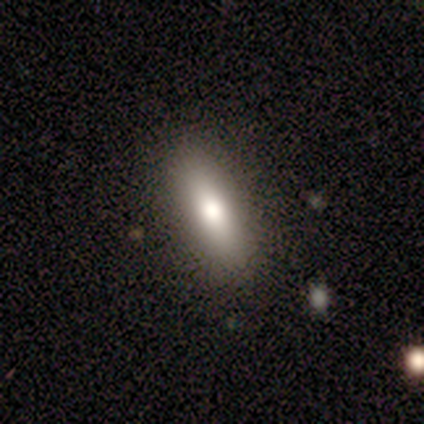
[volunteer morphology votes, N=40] A smooth galaxy with no disk features (72%) that is in between round and cigar-shaped (69%). Merging: none (84%).